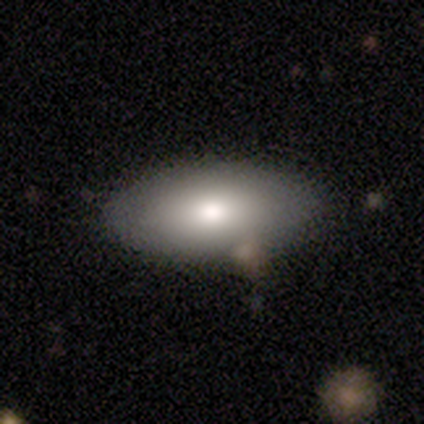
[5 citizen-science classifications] Smooth or featured? smooth (100%)
How rounded? in between (100%)
Merging? none (100%)